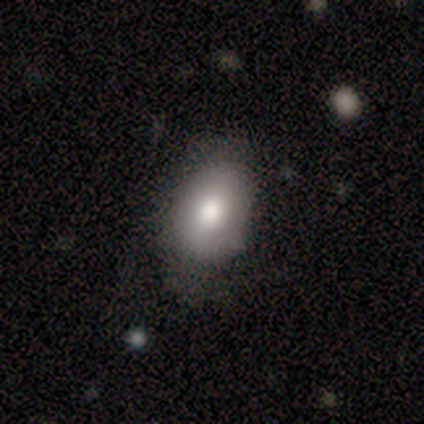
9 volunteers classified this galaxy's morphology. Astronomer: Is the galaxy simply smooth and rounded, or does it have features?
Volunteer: smooth — 89%.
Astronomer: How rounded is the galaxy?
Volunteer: in between — 88%.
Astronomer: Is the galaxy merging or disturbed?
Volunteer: none — 67%.